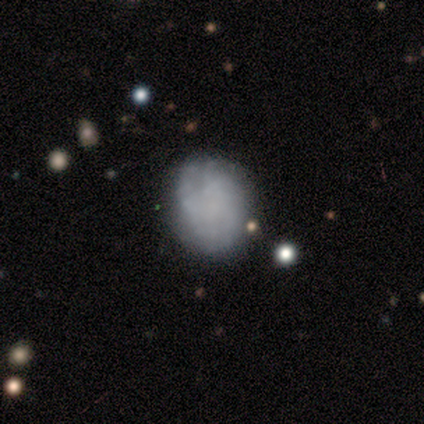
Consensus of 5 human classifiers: This appears to be a featured or disk galaxy (60%) with no bar (100%), no spiral arms (67%) and no central bulge (100%). Merging: minor disturbance (60%).